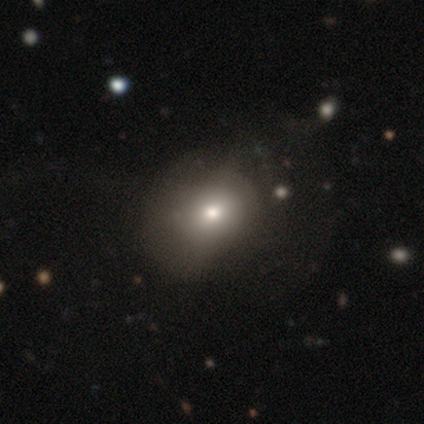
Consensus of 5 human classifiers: smooth 60%, featured or disk 20%, star or artifact 20%. Down the decision tree: how rounded — round (67%); merging — none (50%).